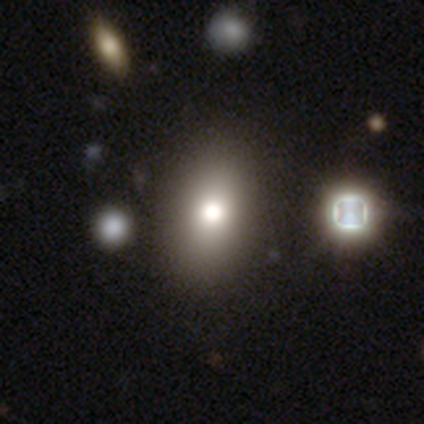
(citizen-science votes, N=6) Smooth or featured? smooth (50%, tied with featured or disk)
How rounded? in between (67%)
Merging? none (83%)